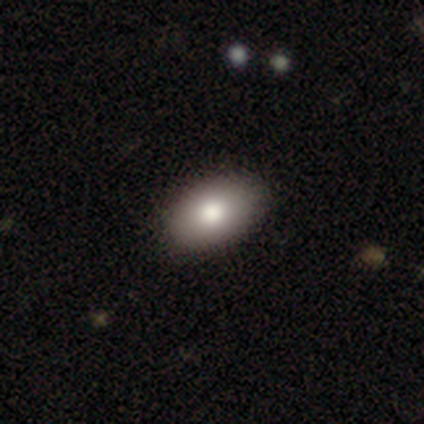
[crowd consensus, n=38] Smooth or featured? smooth (84%)
How rounded? in between (100%)
Merging? none (92%)